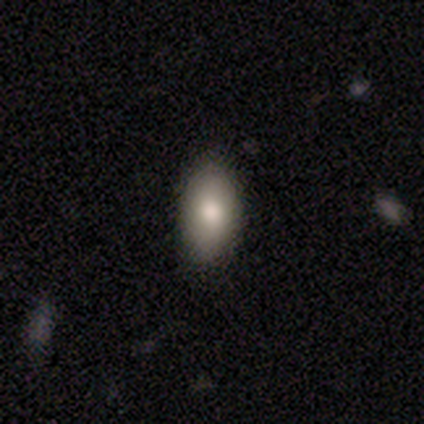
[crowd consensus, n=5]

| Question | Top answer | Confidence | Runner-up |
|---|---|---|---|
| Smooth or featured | smooth | 80% | featured or disk (20%) |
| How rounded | in between | 100% | — |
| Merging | none | 80% | major disturbance (20%) |